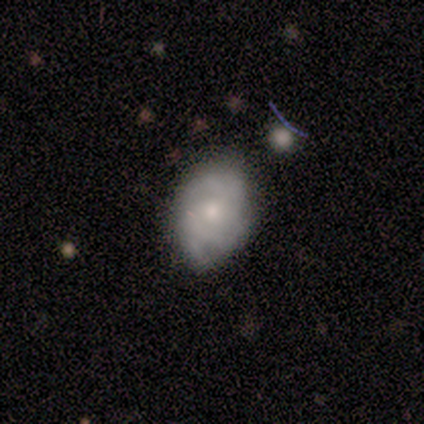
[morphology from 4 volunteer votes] Volunteers were most divided on "smooth or featured": smooth: 50%, featured or disk: 25%, star or artifact: 25%. More confident: how rounded — in between (100%); merging — none (67%).